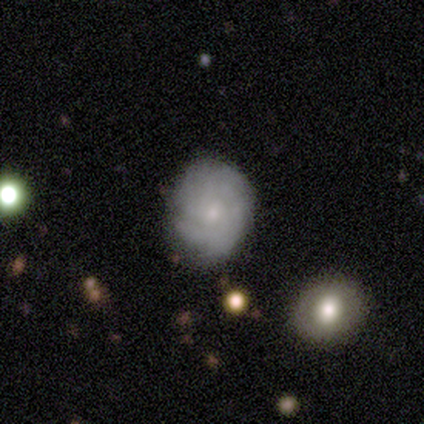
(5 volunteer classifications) Morphology: type=smooth (40%, tied with featured or disk); roundness=round (50%, tied with in between); merging=none (100%).